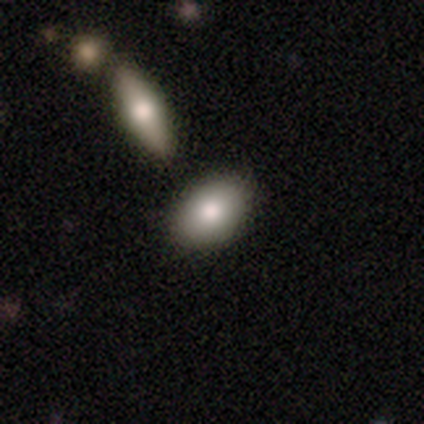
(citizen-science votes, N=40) This appears to be a smooth galaxy with no disk features (78%) that is in between round and cigar-shaped (87%). Merging: none (49%).